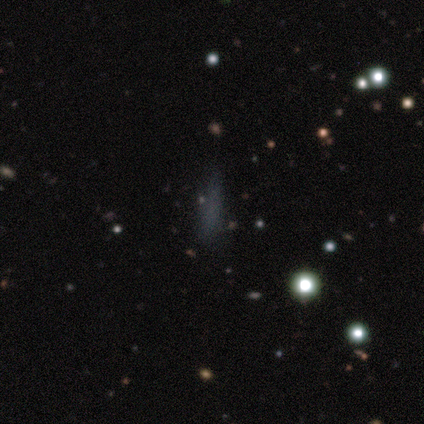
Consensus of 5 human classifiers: Smooth or featured: smooth — 60% (star or artifact — 40%)
How rounded: cigar-shaped — 100%
Merging: minor disturbance — 67% (none — 33%)